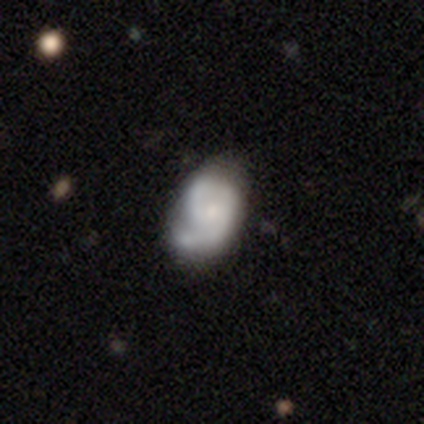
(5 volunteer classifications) Smooth or featured?
  - featured or disk: 80% *
  - star or artifact: 20%
  - smooth: 0%
Edge-on disk?
  - no: 100% *
  - yes: 0%
Bar?
  - weak: 50% * (tied)
  - no: 50% * (tied)
  - strong: 0%
Spiral arms?
  - yes: 100% *
  - no: 0%
Spiral winding?
  - medium: 100% *
  - tight: 0%
  - loose: 0%
Spiral arm count?
  - 2: 100% *
  - 1: 0%
  - 3: 0%
  - 4: 0%
  - more than 4: 0%
  - can't tell: 0%
Bulge size?
  - small: 100% *
  - dominant: 0%
  - large: 0%
  - moderate: 0%
  - none: 0%
Merging?
  - minor disturbance: 75% *
  - none: 25%
  - major disturbance: 0%
  - merger: 0%